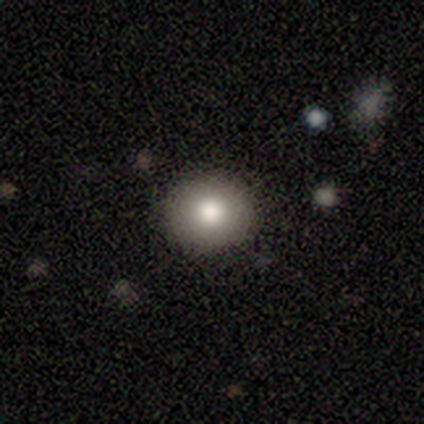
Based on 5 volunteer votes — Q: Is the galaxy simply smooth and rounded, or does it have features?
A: smooth — 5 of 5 (100%).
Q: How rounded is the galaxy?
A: round — 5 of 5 (100%).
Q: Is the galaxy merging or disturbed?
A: none — 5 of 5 (100%).